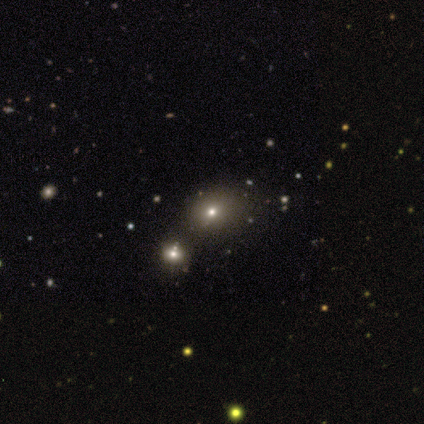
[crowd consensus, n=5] This appears to be a star or artifact, not a galaxy (60%).